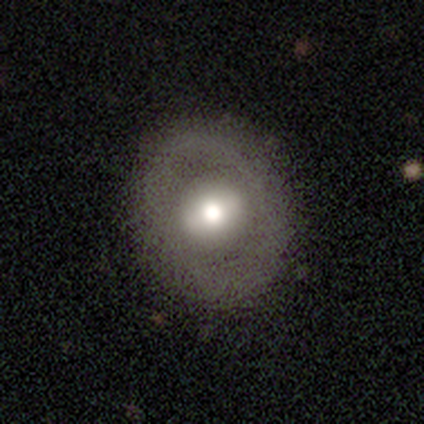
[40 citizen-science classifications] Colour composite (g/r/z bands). It shows a smooth galaxy with no disk features (55%) that is round (64%). Merging: none (62%).